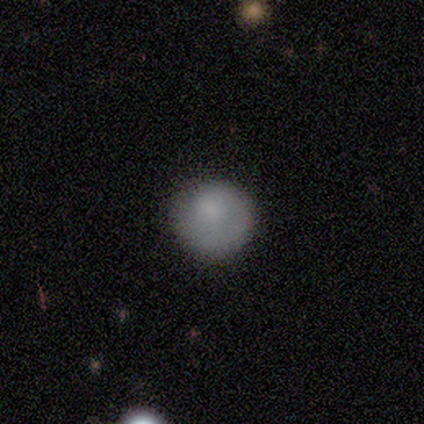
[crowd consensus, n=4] Smooth or featured? smooth (100%)
How rounded? round (100%)
Merging? none (75%)